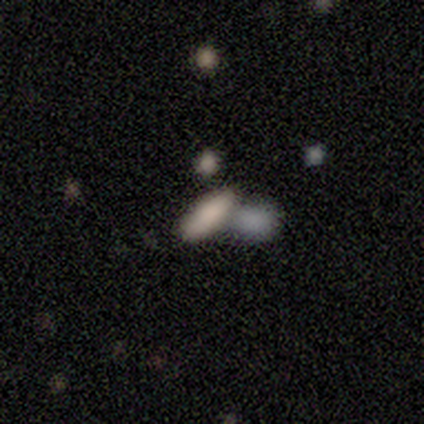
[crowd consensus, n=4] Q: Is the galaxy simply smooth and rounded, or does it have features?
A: smooth — 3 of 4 (75%).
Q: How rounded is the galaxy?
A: cigar-shaped — 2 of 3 (67%).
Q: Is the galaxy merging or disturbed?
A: merger — 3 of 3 (100%).